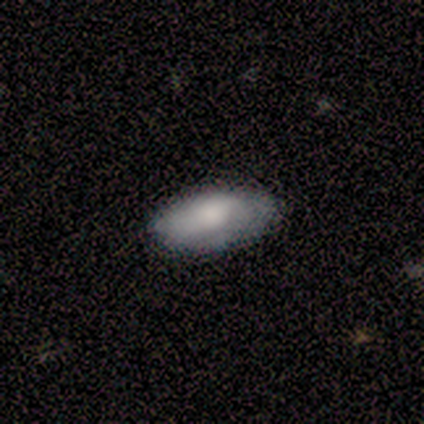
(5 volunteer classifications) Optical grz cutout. It shows a smooth galaxy with no disk features (100%) that is in between round and cigar-shaped (100%). Merging: none (80%).